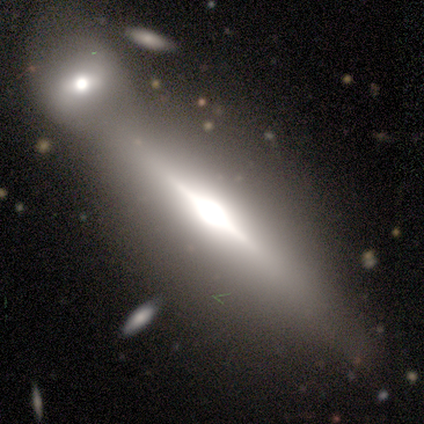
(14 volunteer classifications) Volunteers were most divided on "merging": merger: 50%, none: 42%, minor disturbance: 8%, major disturbance: 0%. More confident: edge-on disk — yes (92%); smooth or featured — featured or disk (86%); edge-on bulge — rounded (73%).